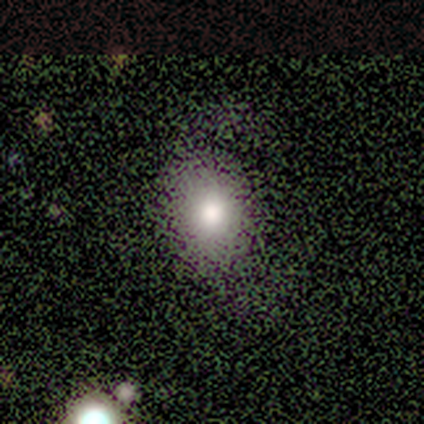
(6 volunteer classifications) Smooth or featured?
  - smooth: 83% *
  - featured or disk: 17%
  - star or artifact: 0%
How rounded?
  - in between: 80% *
  - round: 20%
  - cigar-shaped: 0%
Merging?
  - none: 50% *
  - major disturbance: 33%
  - minor disturbance: 17%
  - merger: 0%